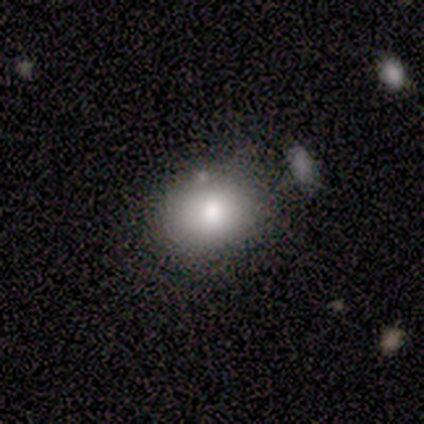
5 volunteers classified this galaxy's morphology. smooth_or_featured: smooth (p=0.80) [alt: featured or disk p=0.20]
how_rounded: round (p=0.75) [alt: in between p=0.25]
merging: minor disturbance (p=0.60) [alt: none p=0.40]